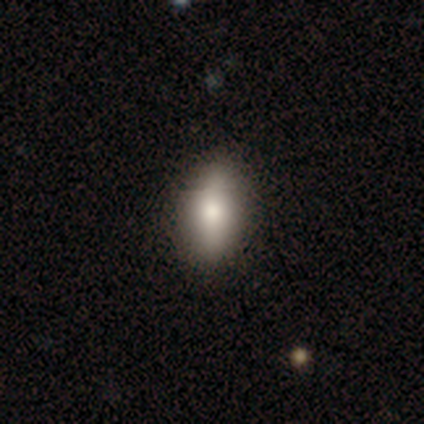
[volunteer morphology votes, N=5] This is clearly a smooth galaxy (80%). How rounded: likely in between (75%). Merging: clearly none (100%).